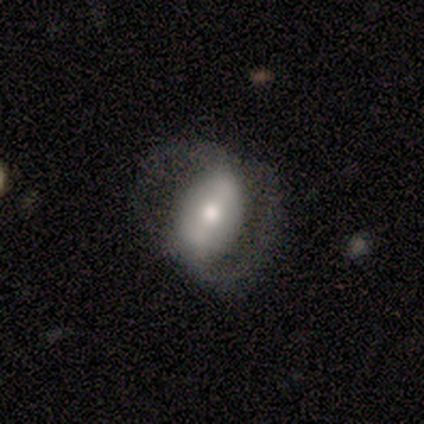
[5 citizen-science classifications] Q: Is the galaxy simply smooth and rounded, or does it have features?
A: featured or disk — 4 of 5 (80%).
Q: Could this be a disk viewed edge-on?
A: no — 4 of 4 (100%).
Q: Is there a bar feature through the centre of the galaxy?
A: strong — 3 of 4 (75%).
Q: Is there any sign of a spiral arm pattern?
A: yes — 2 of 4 (50%, tied with no).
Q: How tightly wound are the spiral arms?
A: medium — 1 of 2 (50%, tied with loose).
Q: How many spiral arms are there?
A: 2 — 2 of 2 (100%).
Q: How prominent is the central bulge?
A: moderate — 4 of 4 (100%).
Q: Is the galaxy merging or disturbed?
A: major disturbance — 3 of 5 (60%).